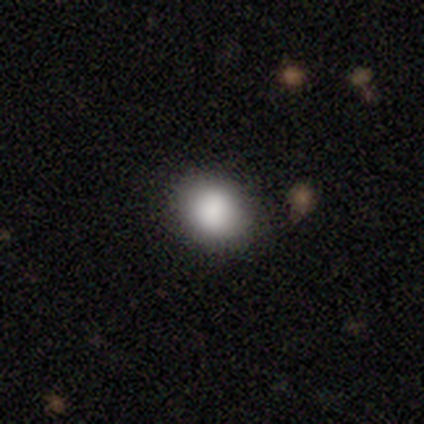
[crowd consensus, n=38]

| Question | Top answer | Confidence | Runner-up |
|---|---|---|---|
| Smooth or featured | smooth | 89% | featured or disk (5%) |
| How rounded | round | 65% | in between (32%) |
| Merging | none | 83% | minor disturbance (11%) |